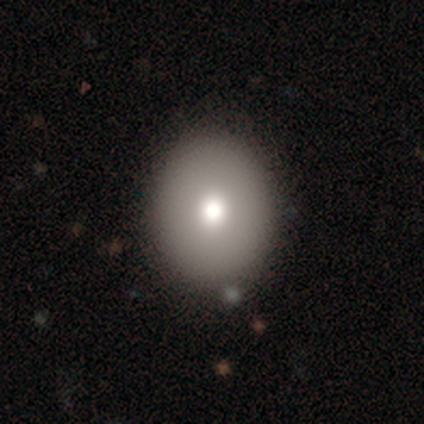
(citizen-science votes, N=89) Q: Smooth or featured?
A: smooth (69%); runner-up: featured or disk (25%)
Q: How rounded?
A: round (52%); runner-up: in between (48%)
Q: Merging?
A: none (90%); runner-up: minor disturbance (10%)